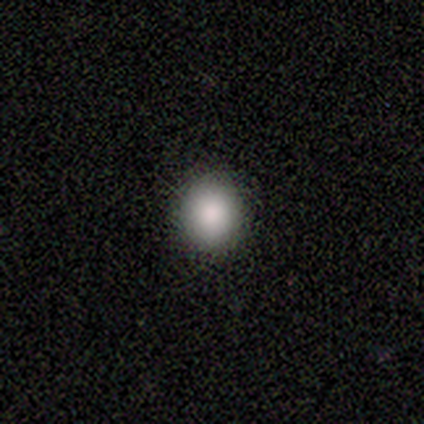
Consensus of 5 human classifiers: Volunteers were most divided on "how rounded": round: 67%, in between: 33%, cigar-shaped: 0%. More confident: merging — none (100%); smooth or featured — smooth (60%).